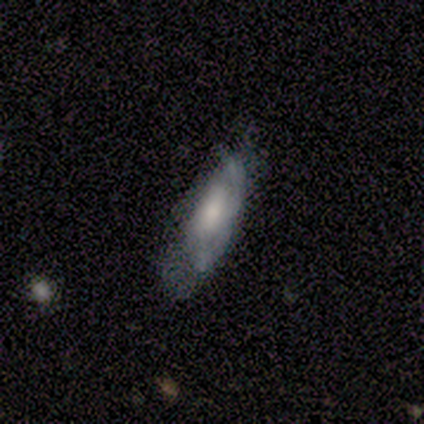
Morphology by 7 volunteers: smooth-or-featured: featured or disk: 71% | smooth: 29% | star or artifact: 0%
  disk-edge-on: no: 100% | yes: 0%
    bar: no: 80% | weak: 20% | strong: 0%
    has-spiral-arms: yes: 80% | no: 20%
      spiral-winding: loose: 50% | tight: 25% | medium: 25%
      spiral-arm-count: can't tell: 75% | 2: 25% | 1: 0% | 3: 0% | 4: 0% | more than 4: 0%
    bulge-size: moderate: 80% | large: 20% | dominant: 0% | small: 0% | none: 0%
  merging: none: 43% (tied) | minor disturbance: 43% (tied) | major disturbance: 14% | merger: 0%